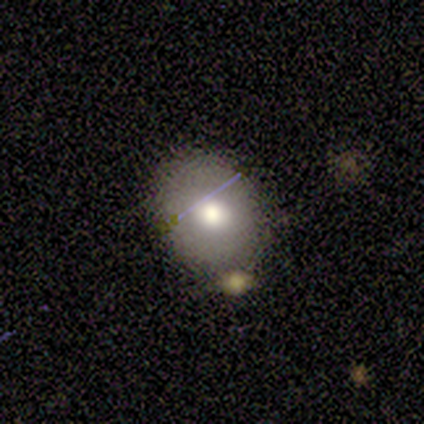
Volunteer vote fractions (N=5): Volunteers were most divided on "smooth or featured": featured or disk: 60%, smooth: 40%, star or artifact: 0%. More confident: edge-on disk — no (100%); spiral arms — no (100%); bar — no (67%); bulge size — moderate (67%); merging — minor disturbance (60%).